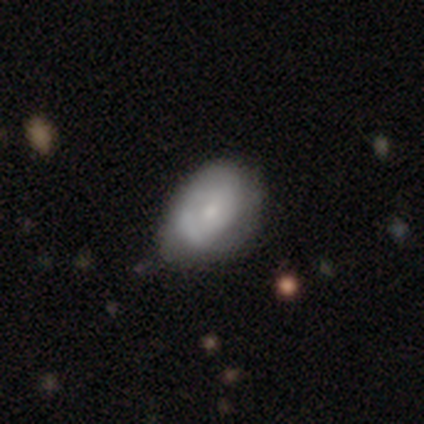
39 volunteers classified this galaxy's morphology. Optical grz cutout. It shows a smooth galaxy with no disk features (54%) that is in between round and cigar-shaped (81%). Merging: none (59%).